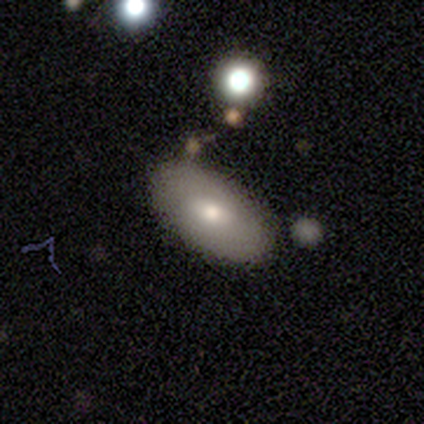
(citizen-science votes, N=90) smooth-or-featured: smooth: 73% | featured or disk: 21% | star or artifact: 6%
  how-rounded: in between: 95% | cigar-shaped: 5% | round: 0%
  merging: none: 81% | minor disturbance: 13% | major disturbance: 5% | merger: 1%